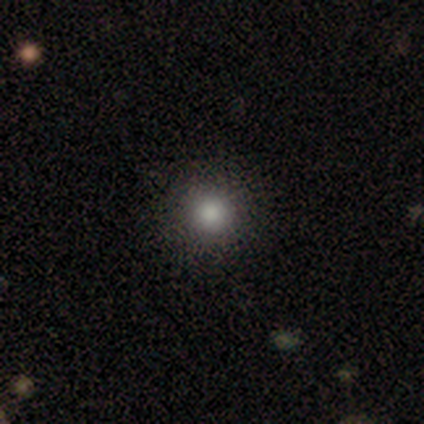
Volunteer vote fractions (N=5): This is clearly a smooth galaxy (80%). How rounded: clearly round (100%). Merging: clearly none (80%).